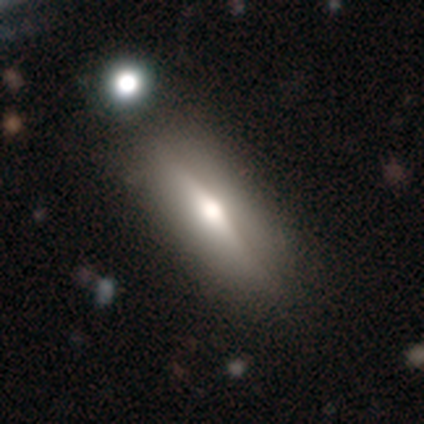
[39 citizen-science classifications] Smooth or featured? 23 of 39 (59%) said featured or disk. Edge-on disk? 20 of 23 (87%) said yes. Edge-on bulge? 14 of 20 (70%) said rounded. Merging? 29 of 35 (83%) said none.